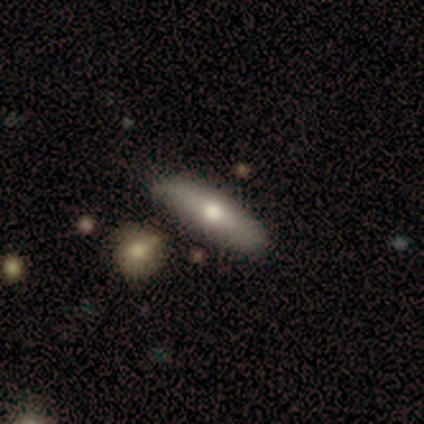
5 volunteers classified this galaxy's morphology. A smooth galaxy with no disk features (80%) that is in between round and cigar-shaped (50%, tied with cigar-shaped). Merging: none (60%).